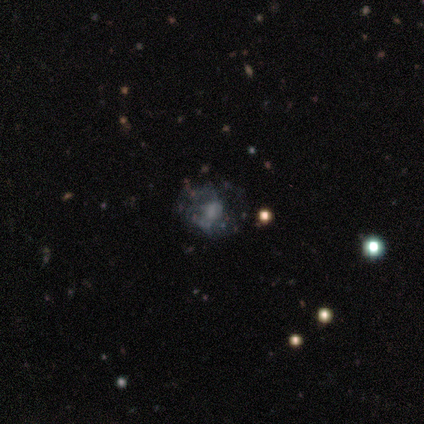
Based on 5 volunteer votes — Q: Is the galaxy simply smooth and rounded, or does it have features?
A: smooth — 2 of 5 (40%, tied with featured or disk).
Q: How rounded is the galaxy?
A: round — 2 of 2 (100%).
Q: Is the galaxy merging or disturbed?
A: major disturbance — 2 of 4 (50%).